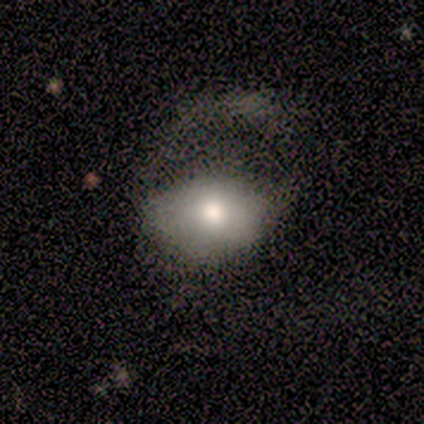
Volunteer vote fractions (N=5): Smooth or featured: smooth — 80% (featured or disk — 20%)
How rounded: in between — 75% (round — 25%)
Merging: major disturbance — 100%